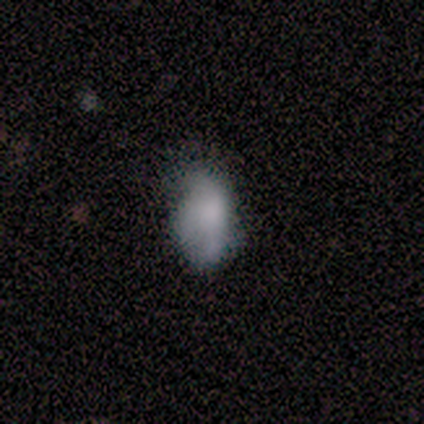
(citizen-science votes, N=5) Smooth or featured?
  - smooth: 80% *
  - star or artifact: 20%
  - featured or disk: 0%
How rounded?
  - in between: 100% *
  - round: 0%
  - cigar-shaped: 0%
Merging?
  - none: 50% * (tied)
  - minor disturbance: 50% * (tied)
  - major disturbance: 0%
  - merger: 0%